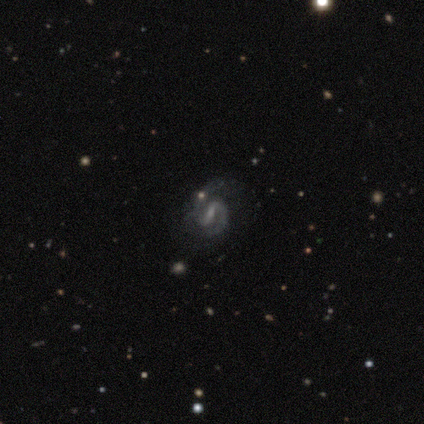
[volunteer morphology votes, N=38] A featured or disk galaxy (82%) with a weak bar (48%), 2 (87%) medium (60%) spiral arms (97%) and a small central bulge (39%). Merging: none (76%).